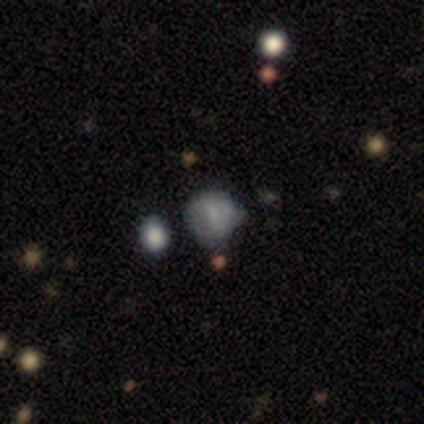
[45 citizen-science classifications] A featured or disk galaxy (42%) with no bar (63%), no spiral arms (74%) and no central bulge (47%).

Vote fractions:
- Smooth or featured? featured or disk: 42% / smooth: 38% / star or artifact: 20%
- Edge-on disk? no: 100% / yes: 0%
- Bar? no: 63% / weak: 26% / strong: 11%
- Spiral arms? no: 74% / yes: 26%
- Bulge size? none: 47% / moderate: 26% / small: 26% / dominant: 0% / large: 0%
- Merging? none: 39% / minor disturbance: 33% / major disturbance: 14% / merger: 14%